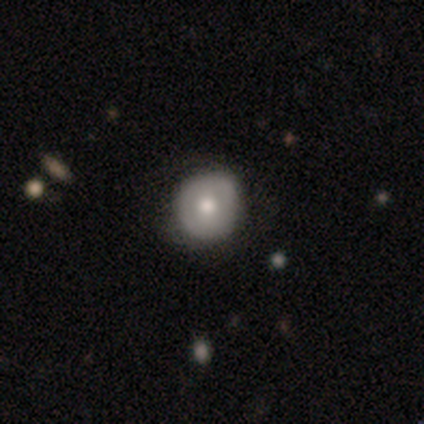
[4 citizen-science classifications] This is likely a smooth galaxy (75%). How rounded: clearly round (100%). Merging: likely none (75%).